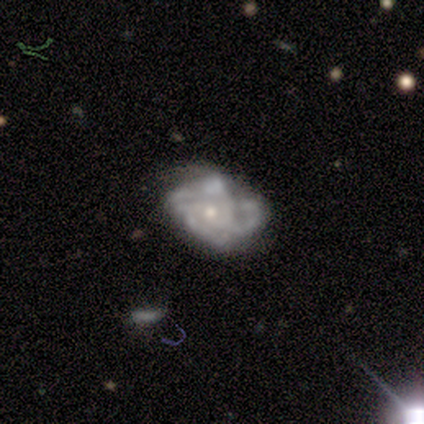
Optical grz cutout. It shows a featured or disk galaxy (100%) with no bar (100%), tight (60%) spiral arms (100%) and a small central bulge (80%). Merging: none (60%).